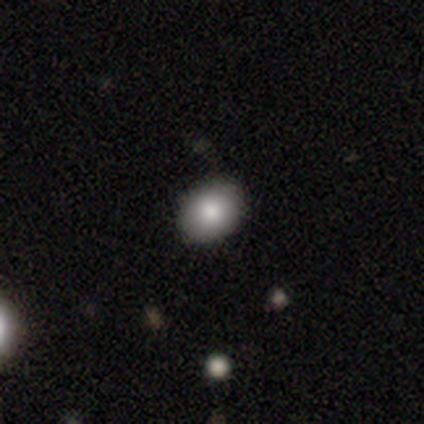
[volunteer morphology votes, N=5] Volunteers were most divided on "how rounded" (2-way tie): round: 50%, in between: 50%, cigar-shaped: 0%. More confident: merging — none (100%); smooth or featured — smooth (80%).